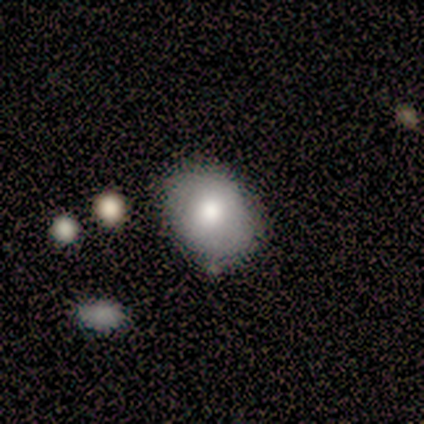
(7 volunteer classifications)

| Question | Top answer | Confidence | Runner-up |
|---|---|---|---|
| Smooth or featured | smooth | 71% | featured or disk (29%) |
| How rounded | round | 60% | in between (40%) |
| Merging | none | 57% | merger (29%) |